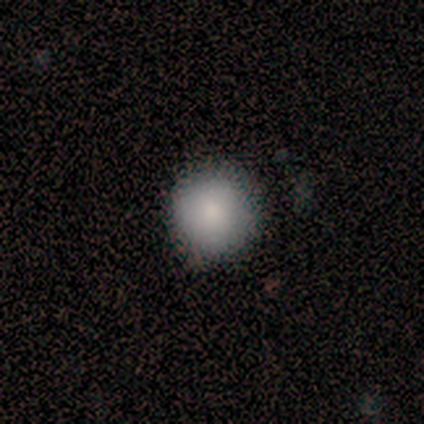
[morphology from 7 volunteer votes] smooth_or_featured: smooth (p=0.71) [alt: featured or disk p=0.14]
how_rounded: round (p=1.00)
merging: none (p=0.83) [alt: minor disturbance p=0.17]